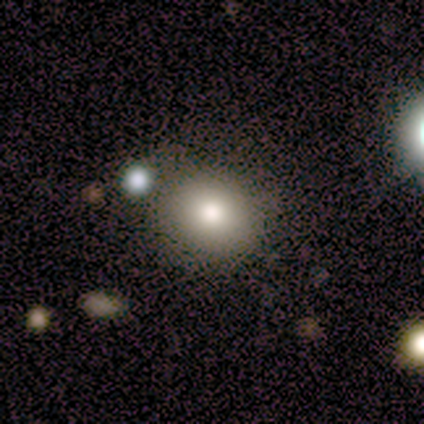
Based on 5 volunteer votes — smooth-or-featured: smooth: 100% | featured or disk: 0% | star or artifact: 0%
  how-rounded: round: 100% | in between: 0% | cigar-shaped: 0%
  merging: none: 80% | merger: 20% | minor disturbance: 0% | major disturbance: 0%